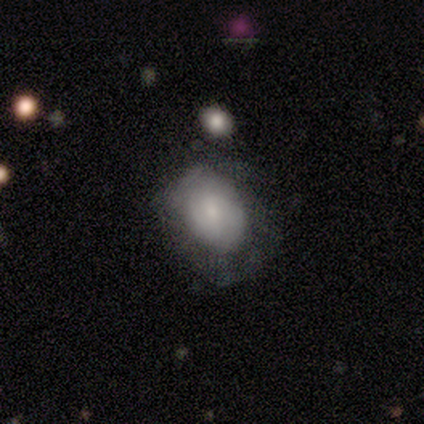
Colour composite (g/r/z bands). It shows a featured or disk galaxy (58%) with no bar (59%), tight (69%) spiral arms (59%) and a small central bulge (70%). Merging: none (48%).